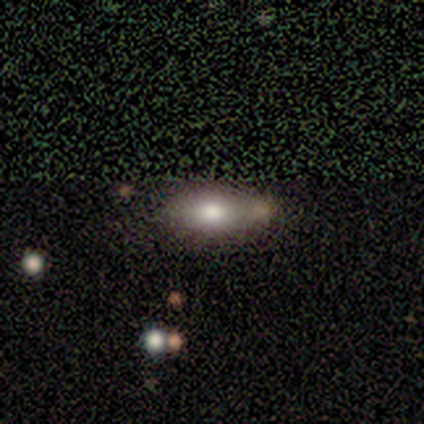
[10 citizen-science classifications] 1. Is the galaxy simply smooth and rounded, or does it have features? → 100% smooth, 0% featured or disk, 0% star or artifact.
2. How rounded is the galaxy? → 80% in between, 20% cigar-shaped, 0% round.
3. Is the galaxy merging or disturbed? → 50% none, 40% minor disturbance, 10% merger, 0% major disturbance.